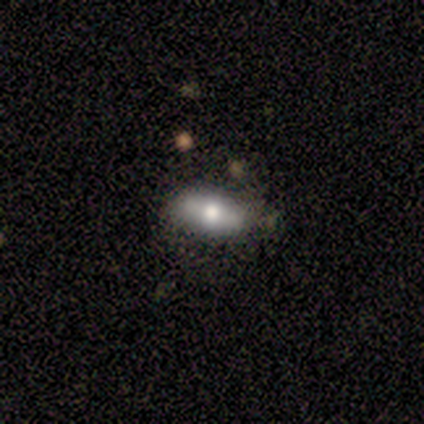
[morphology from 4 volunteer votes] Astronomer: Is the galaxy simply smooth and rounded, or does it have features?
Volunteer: featured or disk — 50%.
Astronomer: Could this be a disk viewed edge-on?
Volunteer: yes — 50%, tied with no at 50%.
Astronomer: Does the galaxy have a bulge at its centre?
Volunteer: rounded — 100%.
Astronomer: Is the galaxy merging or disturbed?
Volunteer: none — 67%.